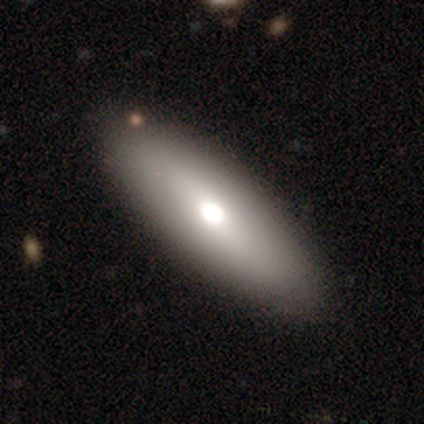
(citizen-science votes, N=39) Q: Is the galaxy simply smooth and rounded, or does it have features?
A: smooth — 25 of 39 (64%).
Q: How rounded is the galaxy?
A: in between — 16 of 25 (64%).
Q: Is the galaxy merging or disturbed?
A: none — 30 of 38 (79%).